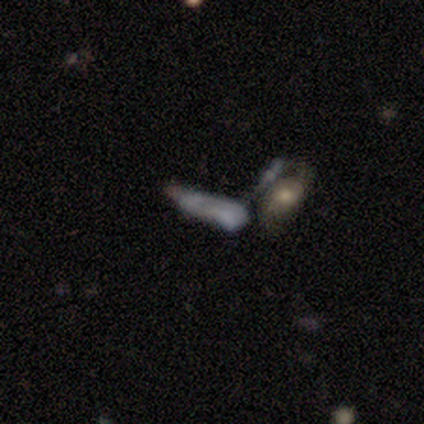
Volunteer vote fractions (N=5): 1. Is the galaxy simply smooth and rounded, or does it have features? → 40% featured or disk (tied), 40% star or artifact (tied), 20% smooth.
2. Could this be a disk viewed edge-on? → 50% yes (tied), 50% no (tied).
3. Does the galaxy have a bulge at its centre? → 100% rounded, 0% boxy, 0% none.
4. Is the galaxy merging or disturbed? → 67% merger, 33% none, 0% minor disturbance, 0% major disturbance.